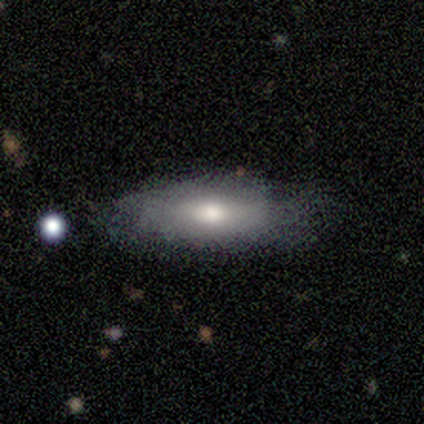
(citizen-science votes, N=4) Morphology: type=smooth (100%); roundness=in between (100%); merging=none (100%).